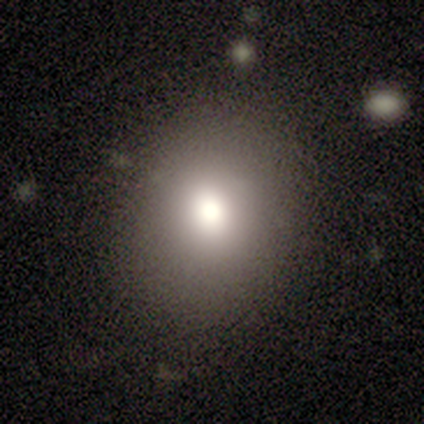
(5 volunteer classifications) This appears to be a smooth galaxy with no disk features (80%) that is round (50%, tied with in between). Merging: none (100%).